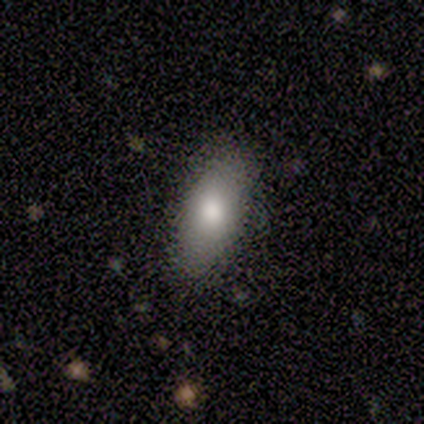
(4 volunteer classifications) Smooth or featured? smooth (75%)
How rounded? in between (100%)
Merging? none (100%)